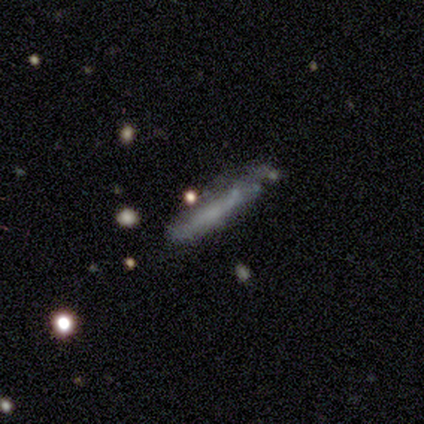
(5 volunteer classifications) Overall: smooth (60%; featured or disk 40%). How rounded: cigar-shaped (67%; in between 33%). Merging: none (40%, tied with major disturbance).